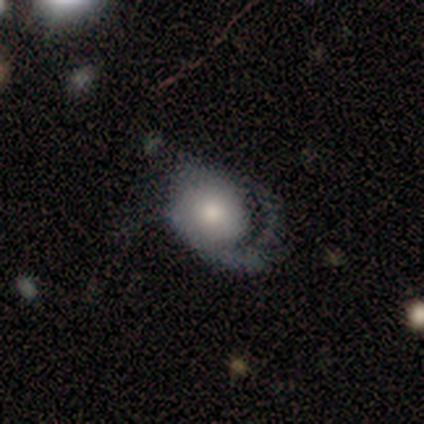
This is clearly a featured or disk galaxy (81%). It is clearly not viewed edge-on (97%). Bar: clearly no (88%). Spiral arm pattern: clearly yes (91%). Spiral arm count: likely 1 (70%). Spiral winding: possibly medium (47%). Central bulge: possibly moderate (52%). Merging: possibly major disturbance (46%).